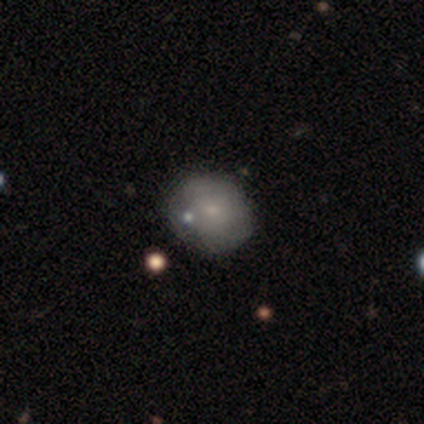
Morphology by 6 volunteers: Volunteers were most divided on "how rounded": round: 60%, in between: 40%, cigar-shaped: 0%. More confident: smooth or featured — smooth (83%); merging — none (83%).